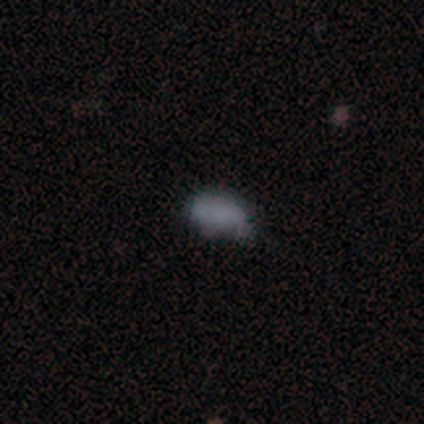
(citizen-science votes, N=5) Morphology: type=smooth (80%); roundness=in between (100%); merging=none (75%).